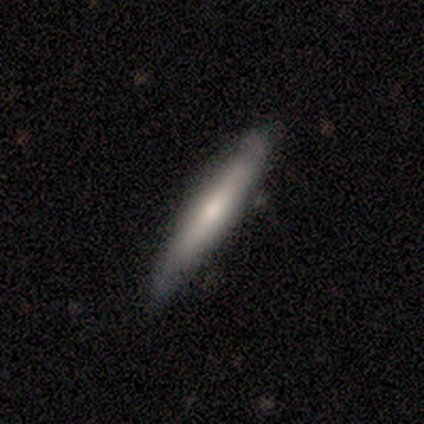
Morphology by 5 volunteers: Q: Smooth or featured?
A: featured or disk (100%)
Q: Edge-on disk?
A: yes (80%); runner-up: no (20%)
Q: Edge-on bulge?
A: rounded (75%); runner-up: none (25%)
Q: Merging?
A: none (60%); runner-up: minor disturbance (20%)